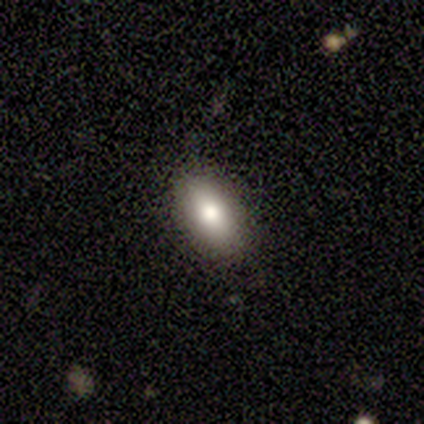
This appears to be a smooth galaxy with no disk features (67%) that is in between round and cigar-shaped (50%, tied with cigar-shaped). Merging: none (100%).